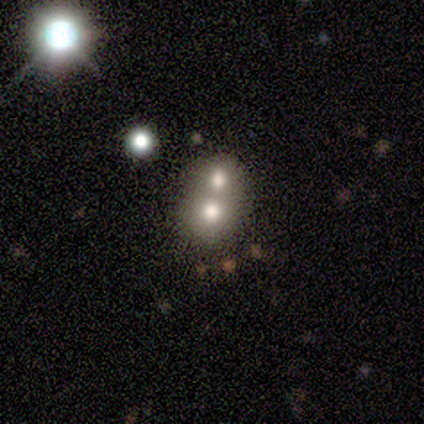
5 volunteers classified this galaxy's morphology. A smooth galaxy with no disk features (40%, tied with featured or disk) that is round (100%). Merging: merger (75%).